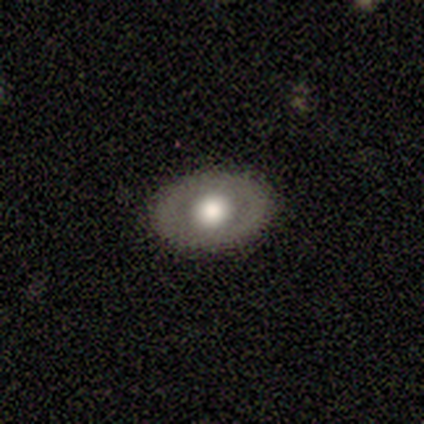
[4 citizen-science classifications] A featured or disk galaxy (75%) with no bar (100%), no spiral arms (100%) and a moderate central bulge (67%).

Vote fractions:
- Smooth or featured? featured or disk: 75% / smooth: 25% / star or artifact: 0%
- Edge-on disk? no: 100% / yes: 0%
- Bar? no: 100% / strong: 0% / weak: 0%
- Spiral arms? no: 100% / yes: 0%
- Bulge size? moderate: 67% / large: 33% / dominant: 0% / small: 0% / none: 0%
- Merging? none: 100% / minor disturbance: 0% / major disturbance: 0% / merger: 0%